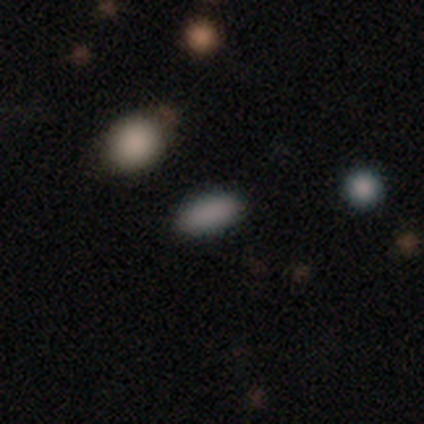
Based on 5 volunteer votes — Q: Smooth or featured?
A: smooth (80%); runner-up: star or artifact (20%)
Q: How rounded?
A: in between (100%)
Q: Merging?
A: none (75%); runner-up: major disturbance (25%)